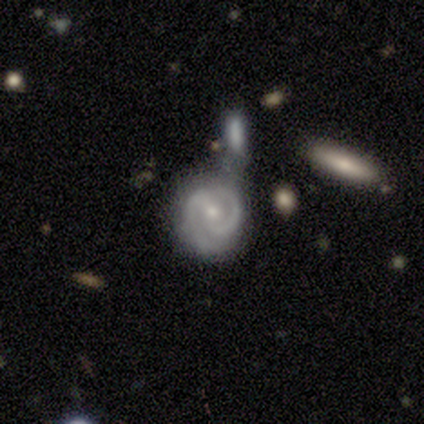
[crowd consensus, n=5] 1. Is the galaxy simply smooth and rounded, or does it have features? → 100% featured or disk, 0% smooth, 0% star or artifact.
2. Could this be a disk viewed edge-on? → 100% no, 0% yes.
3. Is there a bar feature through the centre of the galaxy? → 60% no, 40% weak, 0% strong.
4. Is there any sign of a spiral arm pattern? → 100% yes, 0% no.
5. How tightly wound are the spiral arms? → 60% medium, 40% tight, 0% loose.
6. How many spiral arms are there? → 100% 2, 0% 1, 0% 3, 0% 4, 0% more than 4, 0% can't tell.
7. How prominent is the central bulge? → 100% small, 0% dominant, 0% large, 0% moderate, 0% none.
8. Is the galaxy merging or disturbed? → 60% merger, 40% none, 0% minor disturbance, 0% major disturbance.